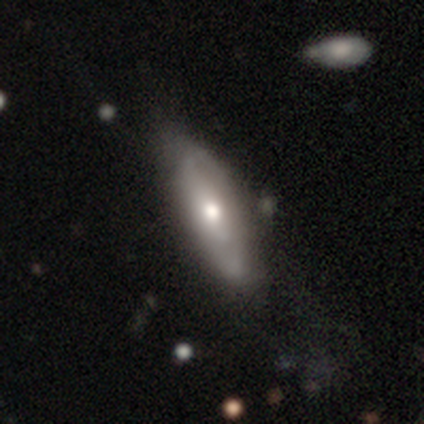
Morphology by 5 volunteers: Overall: featured or disk (60%; smooth 20%). Edge-on disk: no (67%; yes 33%). Bar: no (100%). Spiral arms: no (100%). Bulge size: moderate (50%, tied with small). Merging: minor disturbance (50%; none 25%).